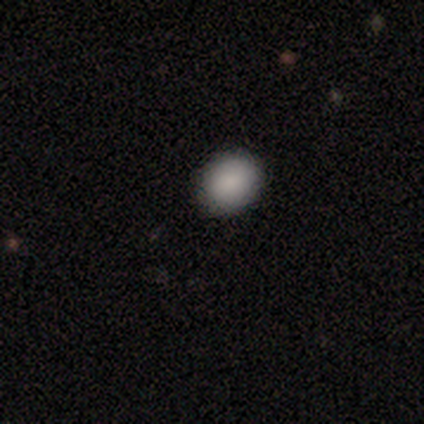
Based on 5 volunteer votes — Morphology: type=smooth (80%); roundness=in between (75%); merging=none (100%).